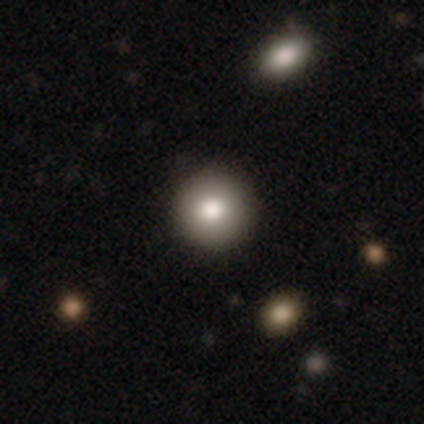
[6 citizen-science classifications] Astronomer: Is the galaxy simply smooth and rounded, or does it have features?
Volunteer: smooth — 67%.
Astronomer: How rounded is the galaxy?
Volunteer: round — 100%.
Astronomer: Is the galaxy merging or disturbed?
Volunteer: none — 100%.